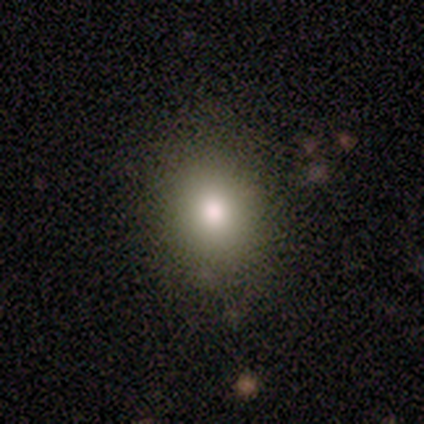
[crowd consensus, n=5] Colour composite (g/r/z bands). It shows a smooth galaxy with no disk features (80%) that is round (75%). Merging: none (100%).